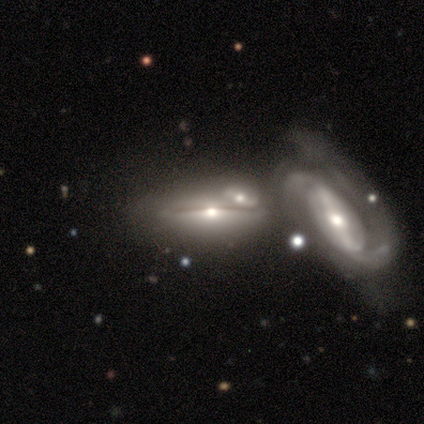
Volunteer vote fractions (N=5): A featured or disk galaxy (60%) viewed edge-on (100%) with a boxy central bulge (33%, tied with none and rounded).

Vote fractions:
- Smooth or featured? featured or disk: 60% / smooth: 40% / star or artifact: 0%
- Edge-on disk? yes: 100% / no: 0%
- Edge-on bulge? boxy: 33% (tied) / none: 33% (tied) / rounded: 33% (tied)
- Merging? none: 60% / minor disturbance: 20% / merger: 20% / major disturbance: 0%